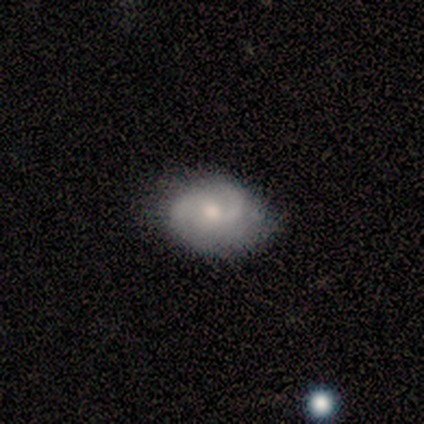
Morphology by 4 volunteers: Smooth or featured? 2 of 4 (50%, tied with featured or disk) said smooth. How rounded? 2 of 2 (100%) said in between. Merging? 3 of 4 (75%) said none.